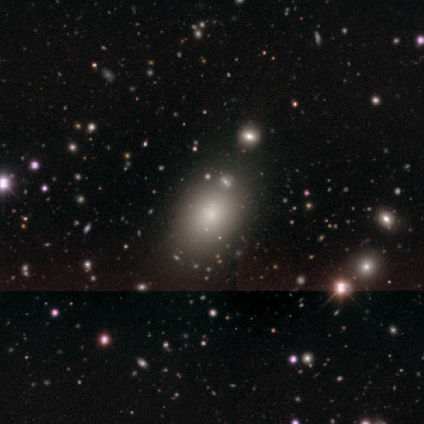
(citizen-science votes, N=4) Smooth or featured: smooth — 50% (featured or disk — 25%)
How rounded: in between — 100%
Merging: none — 100%